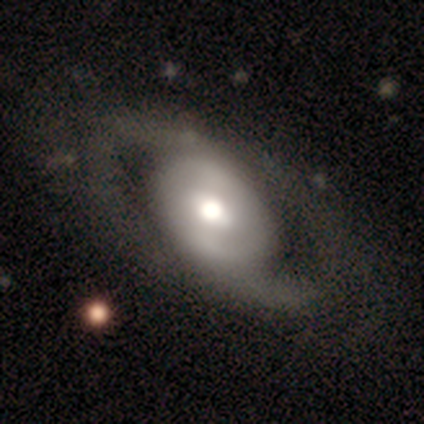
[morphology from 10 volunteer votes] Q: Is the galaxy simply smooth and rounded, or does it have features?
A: featured or disk — 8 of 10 (80%).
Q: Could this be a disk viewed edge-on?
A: no — 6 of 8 (75%).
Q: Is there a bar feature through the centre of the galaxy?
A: no — 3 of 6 (50%).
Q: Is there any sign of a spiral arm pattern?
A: yes — 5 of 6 (83%).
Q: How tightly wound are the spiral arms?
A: medium — 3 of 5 (60%).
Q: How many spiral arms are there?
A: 2 — 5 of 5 (100%).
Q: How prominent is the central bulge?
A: large — 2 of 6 (33%, tied with moderate).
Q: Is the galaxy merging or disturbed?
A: none — 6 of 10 (60%).